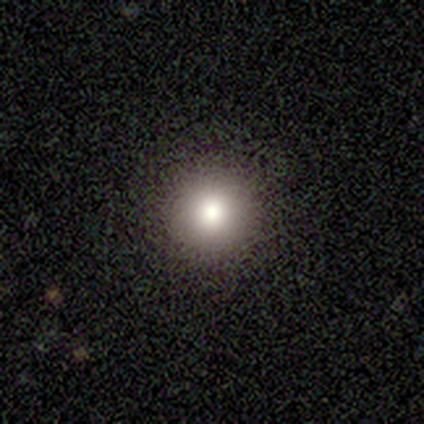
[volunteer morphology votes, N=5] smooth 60%, featured or disk 20%, star or artifact 20%. Down the decision tree: how rounded — round (100%); merging — none (100%).